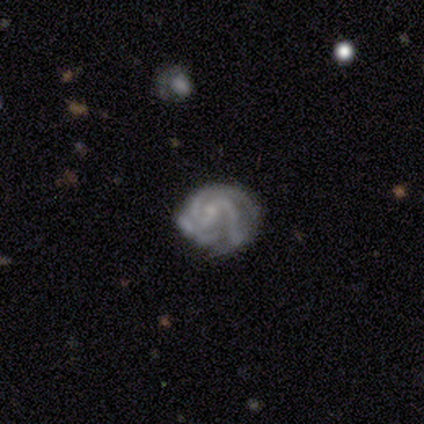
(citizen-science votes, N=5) A featured or disk galaxy (100%) with no bar (60%), 2 (50%, tied with 3) tight (75%) spiral arms (80%) and a small central bulge (60%).

Vote fractions:
- Smooth or featured? featured or disk: 100% / smooth: 0% / star or artifact: 0%
- Edge-on disk? no: 100% / yes: 0%
- Bar? no: 60% / weak: 40% / strong: 0%
- Spiral arms? yes: 80% / no: 20%
- Spiral winding? tight: 75% / medium: 25% / loose: 0%
- Spiral arm count? 2: 50% (tied) / 3: 50% (tied) / 1: 0% / 4: 0% / more than 4: 0% / can't tell: 0%
- Bulge size? small: 60% / none: 40% / dominant: 0% / large: 0% / moderate: 0%
- Merging? none: 80% / major disturbance: 20% / minor disturbance: 0% / merger: 0%